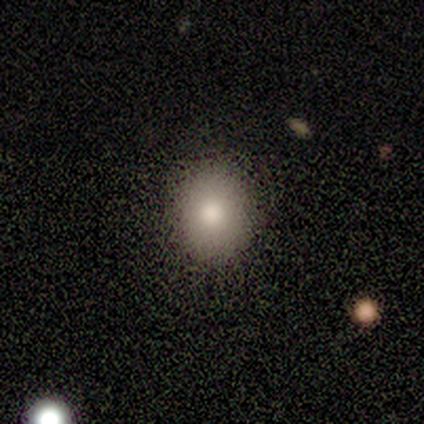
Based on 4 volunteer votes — smooth 100%, featured or disk 0%, star or artifact 0%. Down the decision tree: how rounded — in between (75%); merging — none (75%).